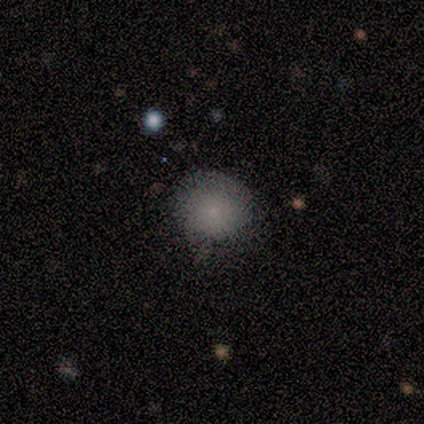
smooth-or-featured: smooth: 77% | featured or disk: 17% | star or artifact: 6%
  how-rounded: round: 80% | in between: 18% | cigar-shaped: 2%
  merging: none: 55% | minor disturbance: 41% | major disturbance: 4% | merger: 0%